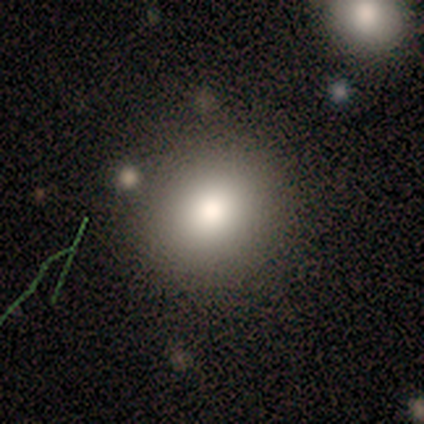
smooth-or-featured: smooth: 100% | featured or disk: 0% | star or artifact: 0%
  how-rounded: round: 80% | in between: 20% | cigar-shaped: 0%
  merging: none: 80% | minor disturbance: 20% | major disturbance: 0% | merger: 0%